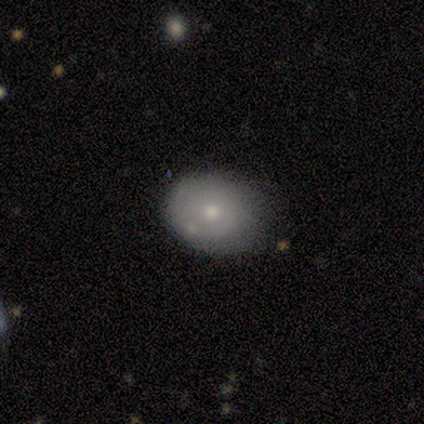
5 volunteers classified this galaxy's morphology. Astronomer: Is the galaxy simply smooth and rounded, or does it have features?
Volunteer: smooth — 60% (runner-up: featured or disk, 40%).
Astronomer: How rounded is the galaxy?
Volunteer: in between — 67%.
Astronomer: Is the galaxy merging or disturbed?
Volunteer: none — 60%.